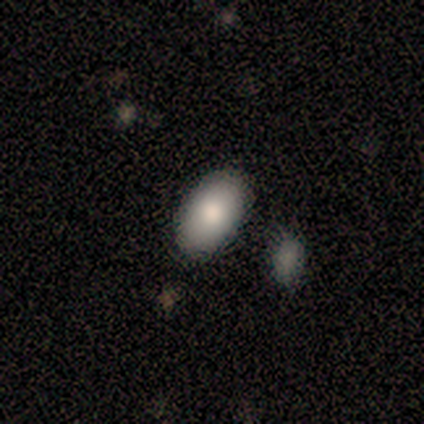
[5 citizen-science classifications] smooth_or_featured: smooth (p=0.60) [alt: star or artifact p=0.40]
how_rounded: in between (p=1.00)
merging: none (p=0.67) [alt: major disturbance p=0.33]